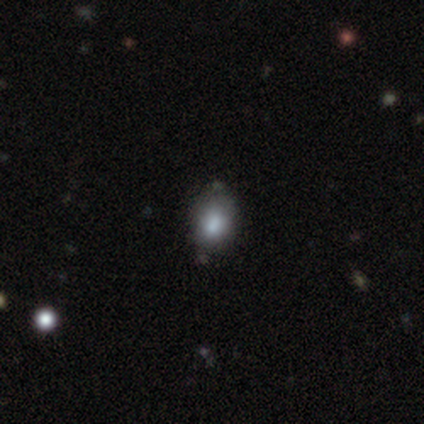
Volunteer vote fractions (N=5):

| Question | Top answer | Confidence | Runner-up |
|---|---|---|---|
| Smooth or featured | smooth | 60% | featured or disk (20%) |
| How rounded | in between | 67% | round (33%) |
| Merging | none | 75% | minor disturbance (25%) |